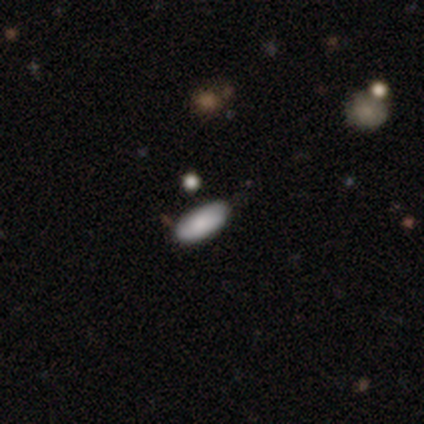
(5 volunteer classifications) Overall: smooth (100%). How rounded: in between (100%). Merging: none (80%).